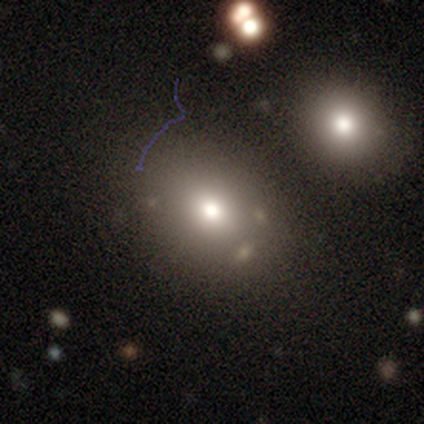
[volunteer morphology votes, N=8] smooth-or-featured: smooth: 62% | star or artifact: 38% | featured or disk: 0%
  how-rounded: in between: 60% | round: 40% | cigar-shaped: 0%
  merging: none: 40% (tied) | minor disturbance: 40% (tied) | major disturbance: 20% | merger: 0%